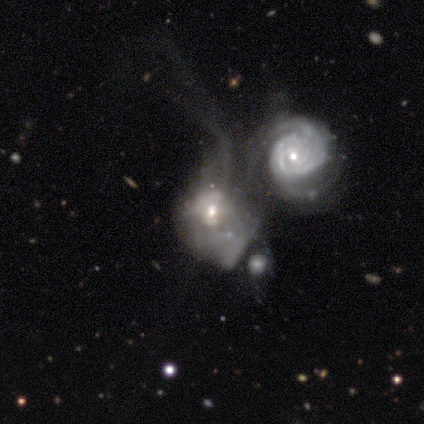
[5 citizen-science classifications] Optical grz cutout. It shows a featured or disk galaxy (80%) with a weak bar (50%, tied with no), 2 (100%) tight (50%, tied with loose) spiral arms (50%, tied with no) and a small central bulge (75%). Merging: merger (80%).